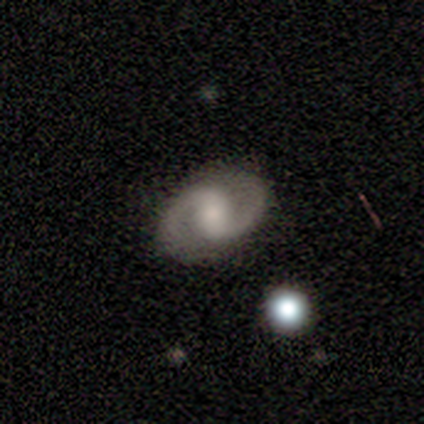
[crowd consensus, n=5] Smooth or featured? featured or disk (100%)
Edge-on disk? no (100%)
Bar? strong (60%)
Spiral arms? yes (80%)
Spiral winding? medium (75%)
Spiral arm count? 2 (100%)
Bulge size? small (60%)
Merging? none (100%)